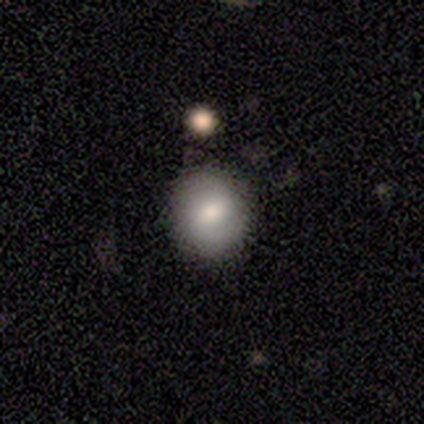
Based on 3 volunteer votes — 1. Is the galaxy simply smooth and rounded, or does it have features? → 100% smooth, 0% featured or disk, 0% star or artifact.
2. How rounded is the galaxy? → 100% round, 0% in between, 0% cigar-shaped.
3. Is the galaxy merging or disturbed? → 67% none, 33% minor disturbance, 0% major disturbance, 0% merger.